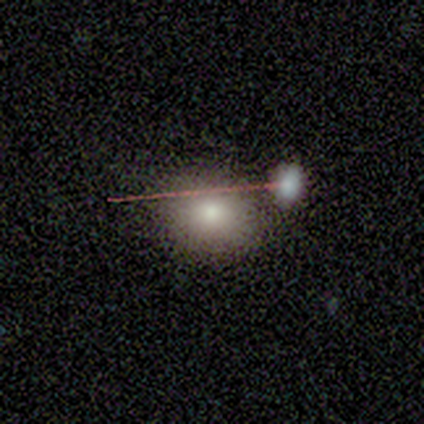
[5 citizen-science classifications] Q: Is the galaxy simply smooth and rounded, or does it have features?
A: smooth — 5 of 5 (100%).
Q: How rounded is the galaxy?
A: in between — 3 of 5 (60%).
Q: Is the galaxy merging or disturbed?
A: none — 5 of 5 (100%).